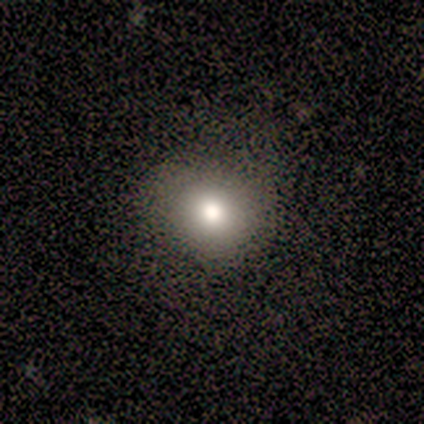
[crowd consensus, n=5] Morphology: type=smooth (100%); roundness=round (100%); merging=none (80%).